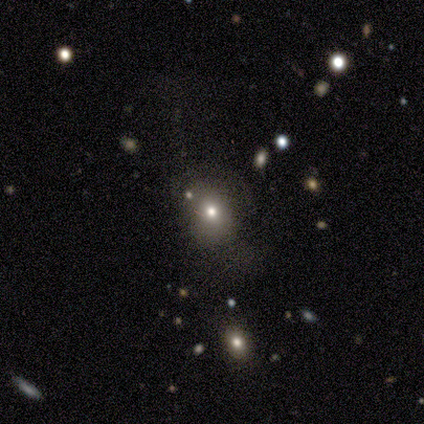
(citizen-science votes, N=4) Smooth or featured?
  - smooth: 75% *
  - star or artifact: 25%
  - featured or disk: 0%
How rounded?
  - in between: 67% *
  - round: 33%
  - cigar-shaped: 0%
Merging?
  - none: 33% * (tied)
  - minor disturbance: 33% * (tied)
  - merger: 33% * (tied)
  - major disturbance: 0%